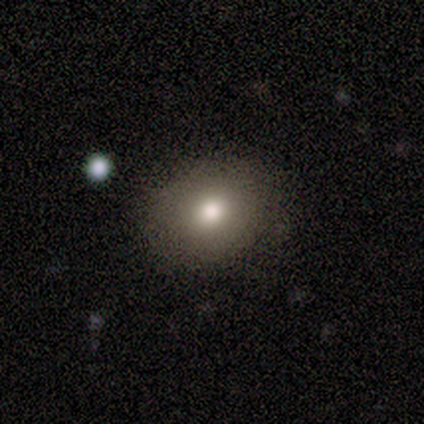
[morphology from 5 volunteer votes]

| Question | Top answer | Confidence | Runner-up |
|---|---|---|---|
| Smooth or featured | smooth | 100% | — |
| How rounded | round | 60% | in between (40%) |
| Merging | none | 80% | merger (20%) |